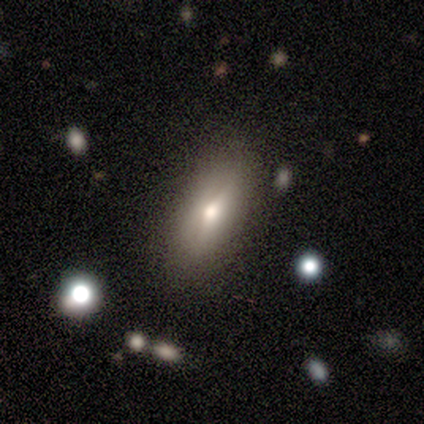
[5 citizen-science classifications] Smooth or featured?
  - smooth: 80% *
  - featured or disk: 20%
  - star or artifact: 0%
How rounded?
  - in between: 50% * (tied)
  - cigar-shaped: 50% * (tied)
  - round: 0%
Merging?
  - none: 100% *
  - minor disturbance: 0%
  - major disturbance: 0%
  - merger: 0%